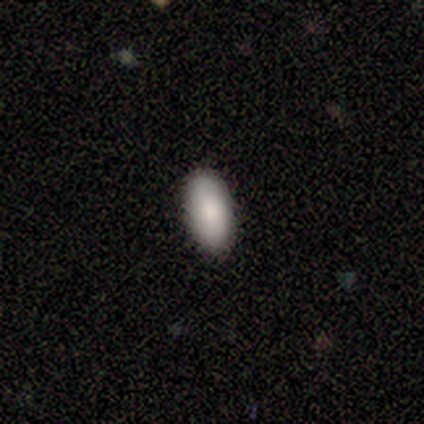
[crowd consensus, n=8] Smooth or featured? smooth (62%)
How rounded? in between (100%)
Merging? none (100%)